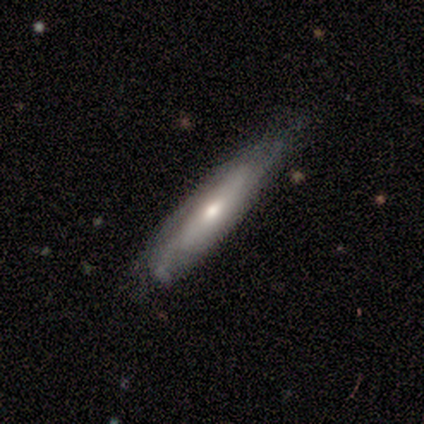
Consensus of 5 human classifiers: Morphology: type=featured or disk (60%); edge-on=no (67%); bar=no (100%); spiral arms=yes (50%, tied with no); winding=medium (100%); arm count=2 (100%); bulge=moderate (100%); merging=none (80%).